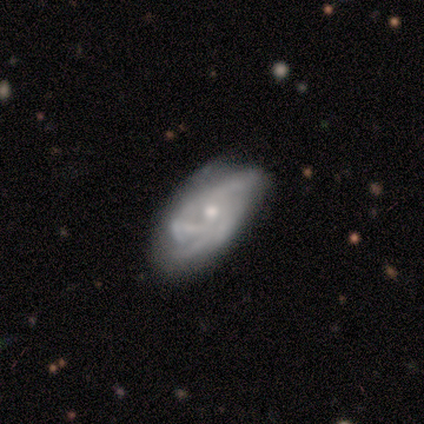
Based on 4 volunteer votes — Q: Smooth or featured?
A: featured or disk (75%); runner-up: smooth (25%)
Q: Edge-on disk?
A: no (100%)
Q: Bar?
A: no (100%)
Q: Spiral arms?
A: yes (100%)
Q: Spiral winding?
A: tight (67%); runner-up: medium (33%)
Q: Spiral arm count?
A: 3 (67%); runner-up: can't tell (33%)
Q: Bulge size?
A: moderate (100%)
Q: Merging?
A: none (75%); runner-up: minor disturbance (25%)